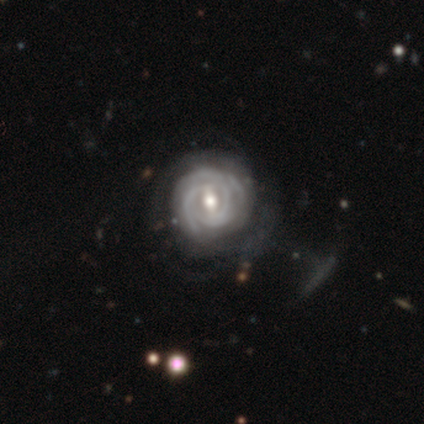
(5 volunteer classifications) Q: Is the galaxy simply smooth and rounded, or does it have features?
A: featured or disk — 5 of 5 (100%).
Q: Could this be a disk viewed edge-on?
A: no — 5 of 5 (100%).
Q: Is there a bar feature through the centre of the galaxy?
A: weak — 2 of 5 (40%, tied with no).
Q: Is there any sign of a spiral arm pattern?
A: yes — 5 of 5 (100%).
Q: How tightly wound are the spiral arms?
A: tight — 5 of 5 (100%).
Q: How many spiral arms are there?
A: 3 — 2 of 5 (40%, tied with can't tell).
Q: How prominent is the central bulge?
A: moderate — 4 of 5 (80%).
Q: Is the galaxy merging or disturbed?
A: none — 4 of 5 (80%).